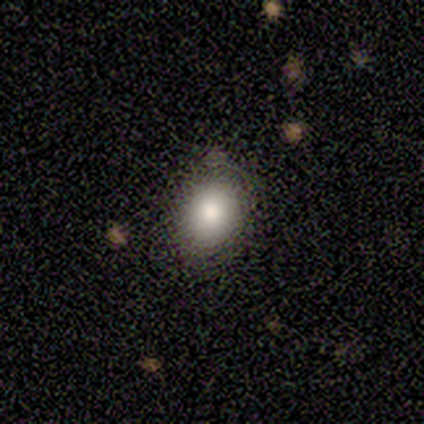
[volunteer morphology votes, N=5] Q: Smooth or featured?
A: smooth (80%); runner-up: featured or disk (20%)
Q: How rounded?
A: round (50%); tied with: in between (50%)
Q: Merging?
A: none (40%); tied with: major disturbance (40%)